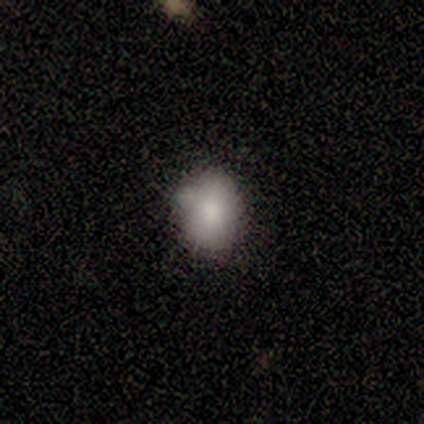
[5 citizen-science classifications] Morphology: type=smooth (100%); roundness=in between (100%); merging=none (60%).